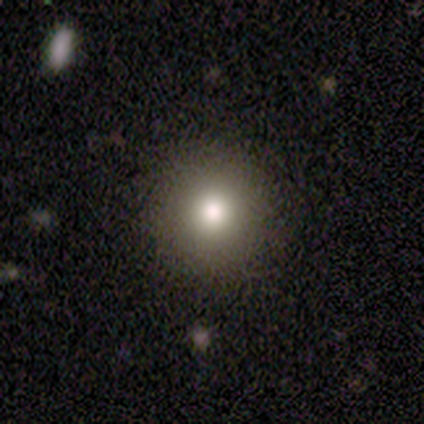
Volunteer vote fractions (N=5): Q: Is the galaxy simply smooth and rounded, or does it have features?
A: smooth — 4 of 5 (80%).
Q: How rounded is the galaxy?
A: round — 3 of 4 (75%).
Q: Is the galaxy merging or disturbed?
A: none — 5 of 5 (100%).